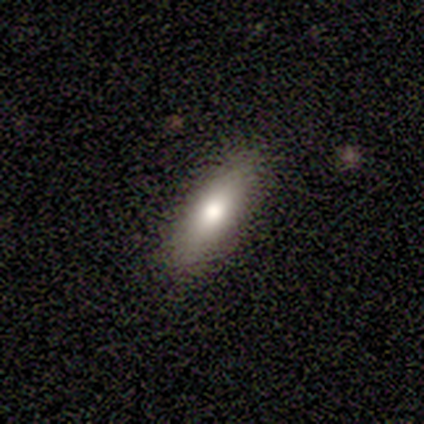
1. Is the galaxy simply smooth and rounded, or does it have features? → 75% smooth, 25% featured or disk, 0% star or artifact.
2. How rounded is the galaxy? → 67% in between, 33% cigar-shaped, 0% round.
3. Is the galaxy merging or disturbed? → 100% none, 0% minor disturbance, 0% major disturbance, 0% merger.